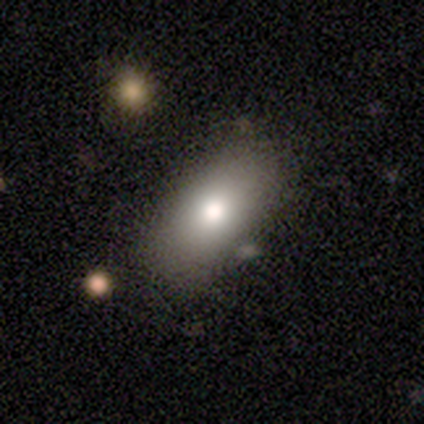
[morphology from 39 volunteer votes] Volunteers were most divided on "merging": none: 75%, minor disturbance: 19%, merger: 6%, major disturbance: 0%. More confident: smooth or featured — smooth (85%); how rounded — in between (79%).